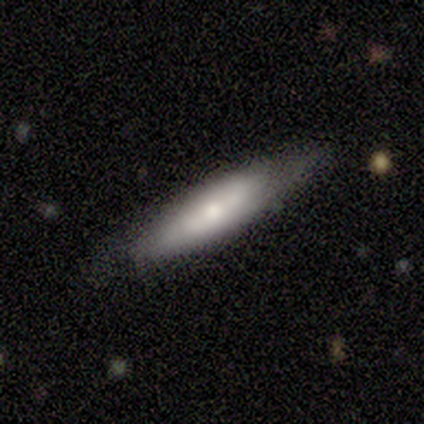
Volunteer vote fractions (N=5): A featured or disk galaxy (100%) viewed edge-on (80%) with a rounded central bulge (75%). Merging: none (60%).